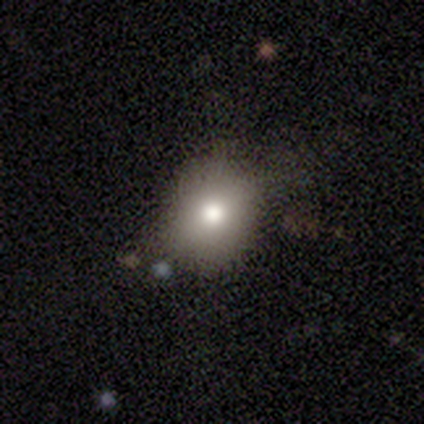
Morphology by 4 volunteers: smooth_or_featured: smooth (p=1.00)
how_rounded: round (p=0.75) [alt: in between p=0.25]
merging: none (p=0.75) [alt: minor disturbance p=0.25]